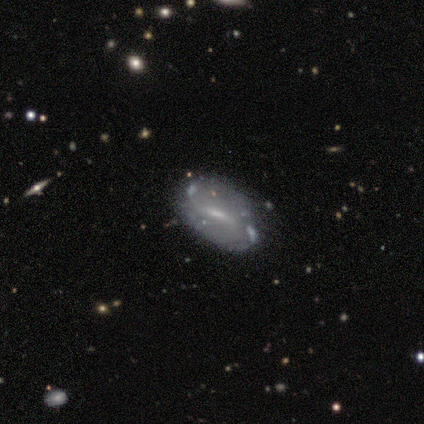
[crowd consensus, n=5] Smooth or featured? 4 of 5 (80%) said featured or disk. Edge-on disk? 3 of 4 (75%) said no. Bar? 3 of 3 (100%) said weak. Spiral arms? 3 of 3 (100%) said yes. Spiral winding? 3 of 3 (100%) said loose. Spiral arm count? 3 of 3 (100%) said 2. Bulge size? 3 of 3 (100%) said small. Merging? 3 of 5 (60%) said none.